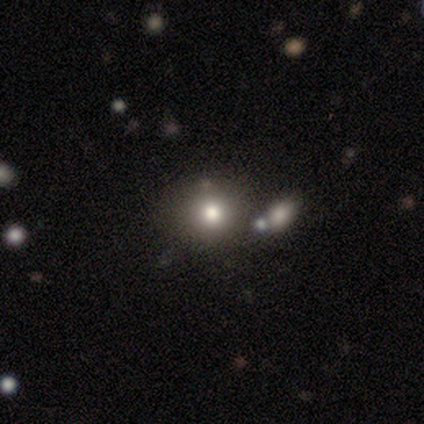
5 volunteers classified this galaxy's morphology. A smooth galaxy with no disk features (100%) that is round (80%). Merging: none (80%).